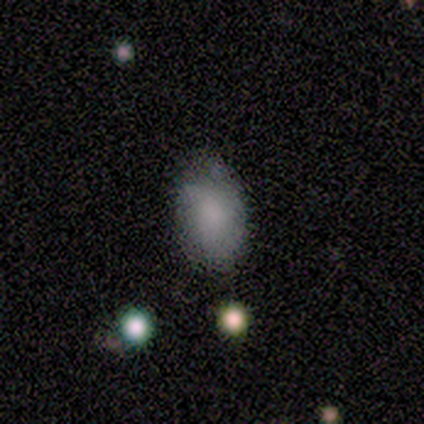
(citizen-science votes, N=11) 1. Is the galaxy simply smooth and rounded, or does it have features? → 100% smooth, 0% featured or disk, 0% star or artifact.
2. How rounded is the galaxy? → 91% in between, 9% round, 0% cigar-shaped.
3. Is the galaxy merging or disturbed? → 64% none, 27% minor disturbance, 9% major disturbance, 0% merger.